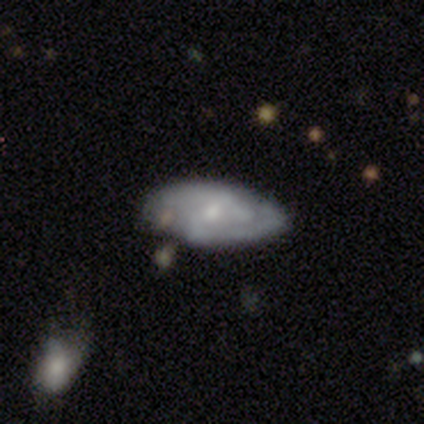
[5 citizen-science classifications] This appears to be a featured or disk galaxy (60%) with a weak bar (50%, tied with no), tight (100%) spiral arms (50%, tied with no) and a small central bulge (100%). Merging: none (40%, tied with minor disturbance).